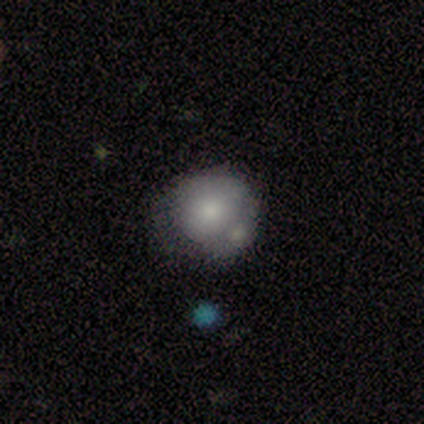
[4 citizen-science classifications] A smooth galaxy with no disk features (75%) that is round (67%).

Vote fractions:
- Smooth or featured? smooth: 75% / star or artifact: 25% / featured or disk: 0%
- How rounded? round: 67% / in between: 33% / cigar-shaped: 0%
- Merging? none: 33% (tied) / minor disturbance: 33% (tied) / merger: 33% (tied) / major disturbance: 0%